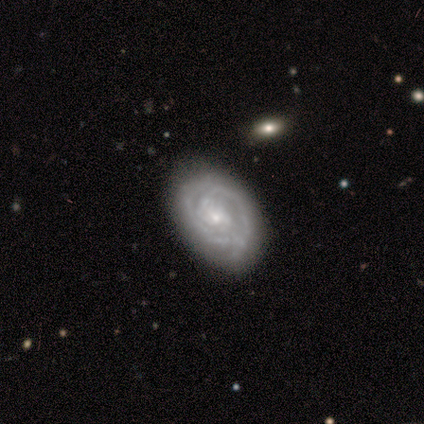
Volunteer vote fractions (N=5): featured or disk 80%, smooth 20%, star or artifact 0%. Down the decision tree: edge-on disk — no (100%); bar — no (75%); spiral arms — yes (100%); spiral arm count — can't tell (50%); spiral winding — tight (50%); bulge size — small (50%); merging — none (80%).